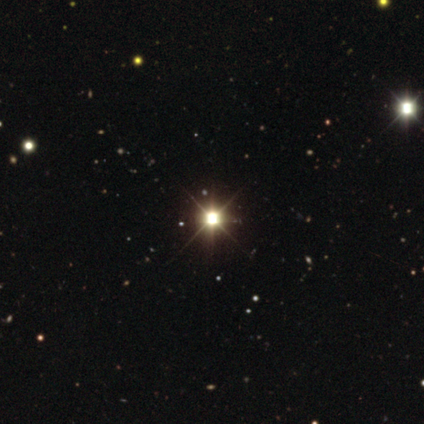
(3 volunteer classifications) smooth_or_featured: star or artifact (p=1.00)